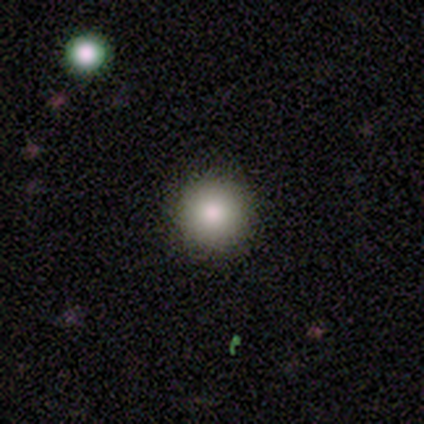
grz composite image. It shows a smooth galaxy with no disk features (75%) that is round (100%). Merging: none (100%).